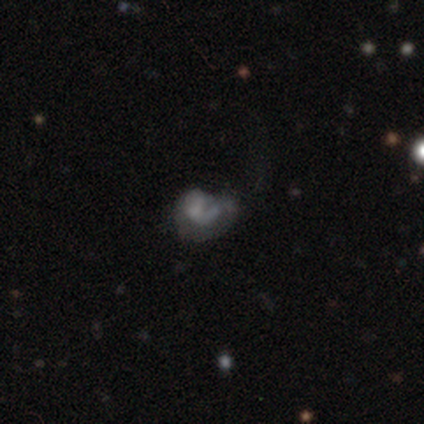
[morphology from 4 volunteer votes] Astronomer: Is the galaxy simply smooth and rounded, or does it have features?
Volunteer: featured or disk — 75%.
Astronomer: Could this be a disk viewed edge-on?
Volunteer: no — 100%.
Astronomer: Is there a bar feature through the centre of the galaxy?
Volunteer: no — 100%.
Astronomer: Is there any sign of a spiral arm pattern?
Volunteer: yes — 67%.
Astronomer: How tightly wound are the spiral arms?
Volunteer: medium — 100%.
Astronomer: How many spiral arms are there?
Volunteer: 1 — 100%.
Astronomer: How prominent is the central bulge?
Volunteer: none — 67%.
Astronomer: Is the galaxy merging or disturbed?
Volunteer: minor disturbance — 33%, tied with major disturbance and merger at 33%.